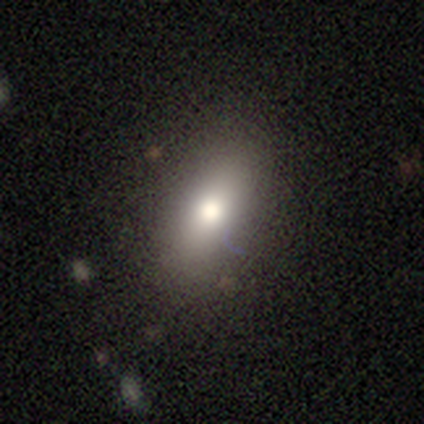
Overall: smooth (69%). How rounded: in between (78%). Merging: none (82%).